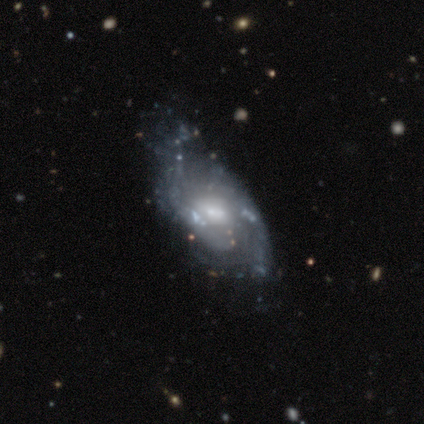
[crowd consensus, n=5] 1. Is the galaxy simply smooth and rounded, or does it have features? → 80% featured or disk, 20% smooth, 0% star or artifact.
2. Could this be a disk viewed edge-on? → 100% no, 0% yes.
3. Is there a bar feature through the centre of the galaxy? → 75% strong, 25% no, 0% weak.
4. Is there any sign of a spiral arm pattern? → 75% yes, 25% no.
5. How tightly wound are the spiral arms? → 67% loose, 33% tight, 0% medium.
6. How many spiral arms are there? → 100% 2, 0% 1, 0% 3, 0% 4, 0% more than 4, 0% can't tell.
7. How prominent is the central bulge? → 75% moderate, 25% small, 0% dominant, 0% large, 0% none.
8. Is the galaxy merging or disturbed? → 40% none (tied), 40% major disturbance (tied), 20% minor disturbance, 0% merger.